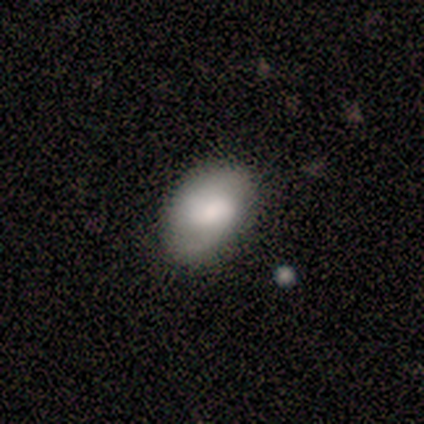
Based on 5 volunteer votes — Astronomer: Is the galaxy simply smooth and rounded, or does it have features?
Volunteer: smooth — 60% (runner-up: featured or disk, 40%).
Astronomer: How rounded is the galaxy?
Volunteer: in between — 67%.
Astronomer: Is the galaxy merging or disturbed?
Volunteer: none — 100%.